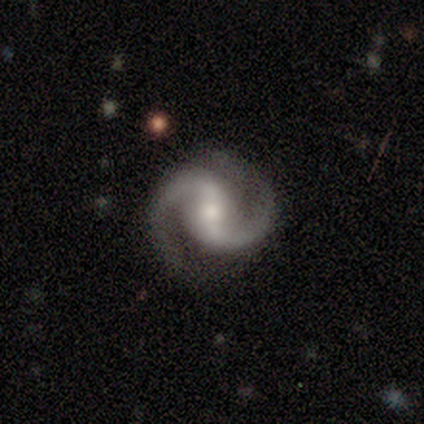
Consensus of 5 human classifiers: featured or disk 100%, smooth 0%, star or artifact 0%. Down the decision tree: edge-on disk — no (100%); bar — weak (60%); spiral arms — yes (100%); spiral arm count — 2 (100%); spiral winding — medium (100%); bulge size — moderate (100%); merging — none (80%).